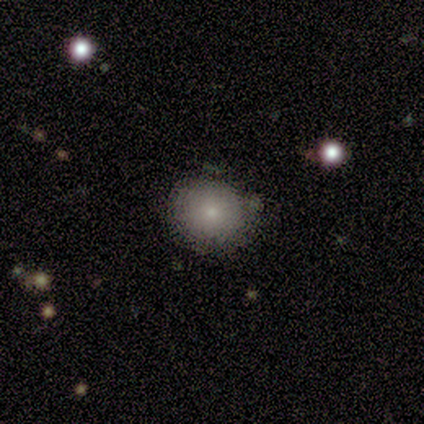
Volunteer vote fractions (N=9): smooth_or_featured: smooth (p=0.78) [alt: featured or disk p=0.11]
how_rounded: round (p=0.71) [alt: in between p=0.29]
merging: none (p=0.75) [alt: minor disturbance p=0.12]